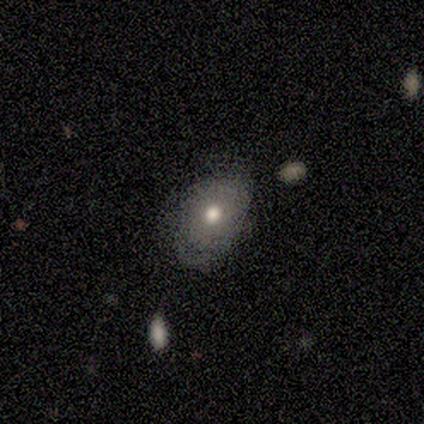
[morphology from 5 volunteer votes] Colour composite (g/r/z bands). It shows a featured or disk galaxy (80%) with no bar (100%), no spiral arms (100%) and a moderate central bulge (100%). Merging: minor disturbance (60%).